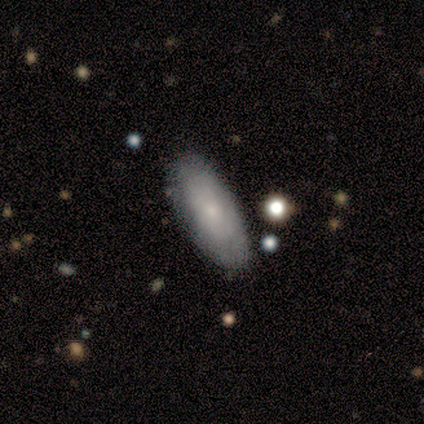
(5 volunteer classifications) This appears to be a smooth galaxy with no disk features (60%) that is in between round and cigar-shaped (100%). Merging: none (100%).